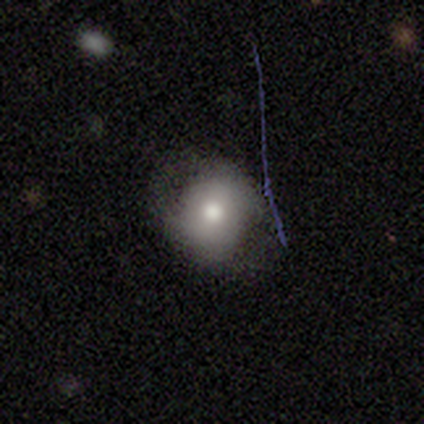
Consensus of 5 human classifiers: Q: Smooth or featured?
A: smooth (80%); runner-up: star or artifact (20%)
Q: How rounded?
A: round (50%); runner-up: in between (25%)
Q: Merging?
A: none (75%); runner-up: minor disturbance (25%)